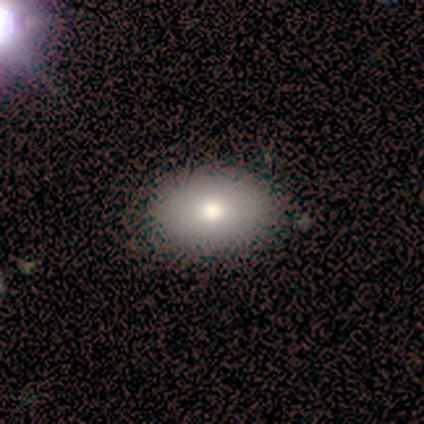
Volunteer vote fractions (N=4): Overall: smooth (75%). How rounded: in between (67%; round 33%). Merging: none (100%).